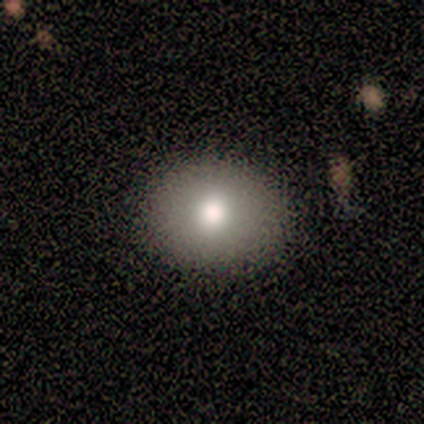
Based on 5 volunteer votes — Smooth or featured? smooth (60%)
How rounded? in between (67%)
Merging? none (100%)